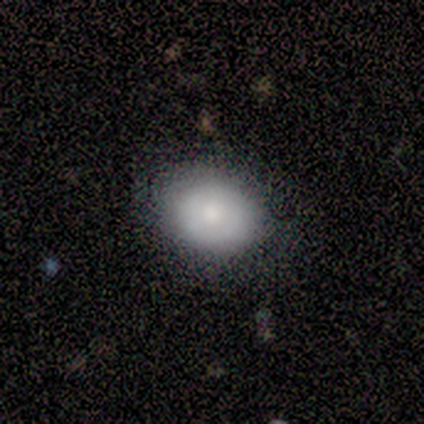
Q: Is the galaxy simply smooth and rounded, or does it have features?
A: smooth — 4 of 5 (80%).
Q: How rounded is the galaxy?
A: round — 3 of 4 (75%).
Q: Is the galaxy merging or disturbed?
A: none — 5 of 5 (100%).